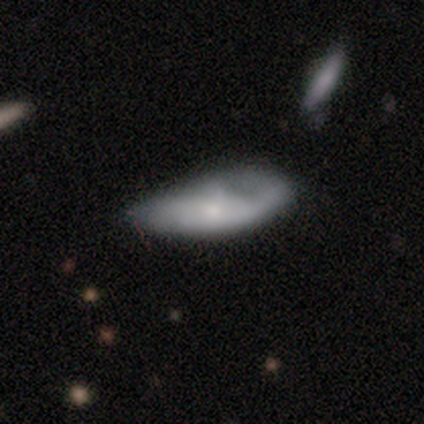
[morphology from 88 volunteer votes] Smooth or featured? smooth (51%)
How rounded? in between (73%)
Merging? minor disturbance (42%)